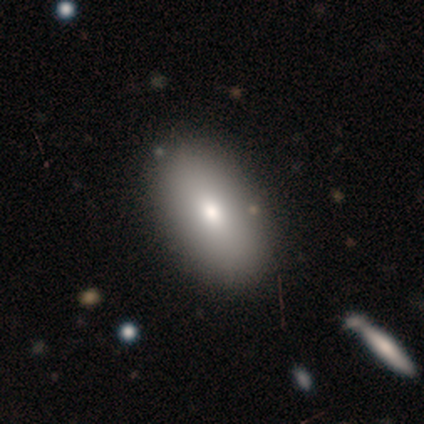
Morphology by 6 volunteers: Overall: smooth (83%). How rounded: in between (60%; round 20%). Merging: none (50%; minor disturbance 33%).